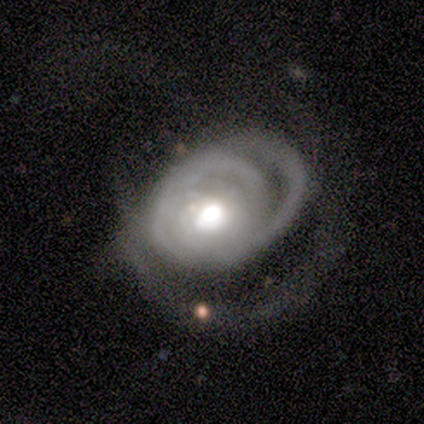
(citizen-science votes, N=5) Overall: featured or disk (80%). Edge-on disk: no (75%). Bar: no (67%; weak 33%). Spiral arms: yes (100%). Spiral arm count: can't tell (67%; 2 33%). Spiral winding: tight (67%; loose 33%). Bulge size: moderate (100%). Merging: none (75%).